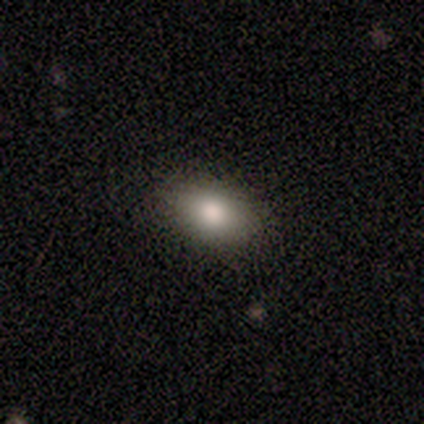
A smooth galaxy with no disk features (80%) that is in between round and cigar-shaped (100%). Merging: none (100%).